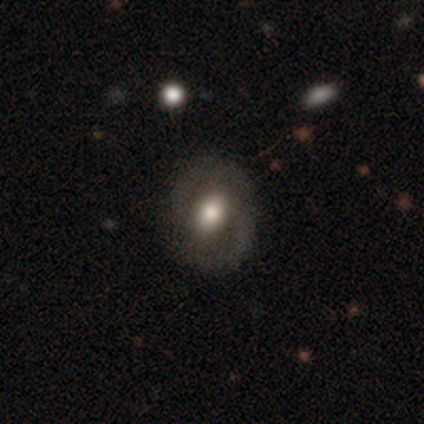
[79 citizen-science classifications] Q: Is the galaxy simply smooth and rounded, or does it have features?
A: featured or disk — 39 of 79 (49%).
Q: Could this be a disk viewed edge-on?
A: no — 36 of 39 (92%).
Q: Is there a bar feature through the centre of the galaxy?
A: no — 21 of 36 (58%).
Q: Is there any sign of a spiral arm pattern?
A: yes — 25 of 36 (69%).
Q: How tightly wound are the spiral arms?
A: medium — 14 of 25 (56%).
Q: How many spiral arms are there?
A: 2 — 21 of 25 (84%).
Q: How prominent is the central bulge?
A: moderate — 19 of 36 (53%).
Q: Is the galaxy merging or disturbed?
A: none — 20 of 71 (28%).